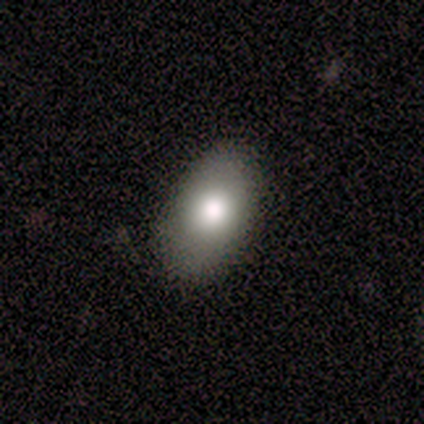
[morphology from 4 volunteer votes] Overall: smooth (100%). How rounded: in between (100%). Merging: none (50%, tied with minor disturbance).